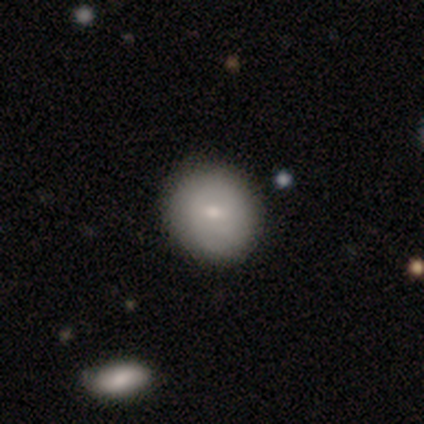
Morphology: type=smooth (62%); roundness=round (92%); merging=none (62%).